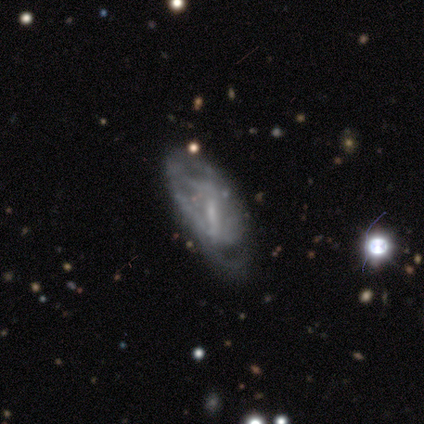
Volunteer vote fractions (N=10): A featured or disk galaxy (80%) with a weak bar (57%), no spiral arms (57%) and no central bulge (57%). Merging: major disturbance (44%).